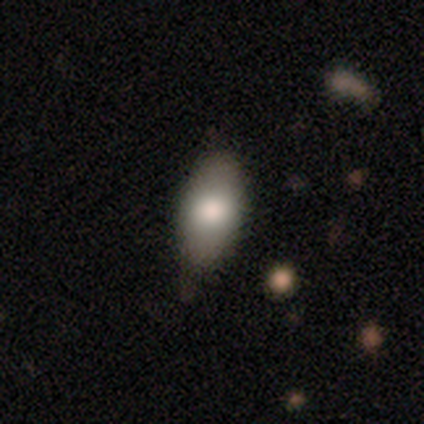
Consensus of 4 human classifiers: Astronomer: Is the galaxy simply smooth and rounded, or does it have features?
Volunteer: smooth — 100%.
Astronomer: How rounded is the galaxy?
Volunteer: in between — 100%.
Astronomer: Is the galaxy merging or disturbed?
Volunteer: none — 50%, tied with minor disturbance at 50%.